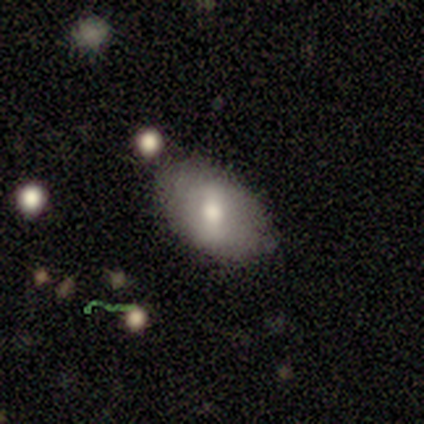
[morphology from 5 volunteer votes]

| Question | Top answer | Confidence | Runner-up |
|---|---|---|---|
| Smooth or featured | smooth | 80% | featured or disk (20%) |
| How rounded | in between | 100% | — |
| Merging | none | 80% | minor disturbance (20%) |